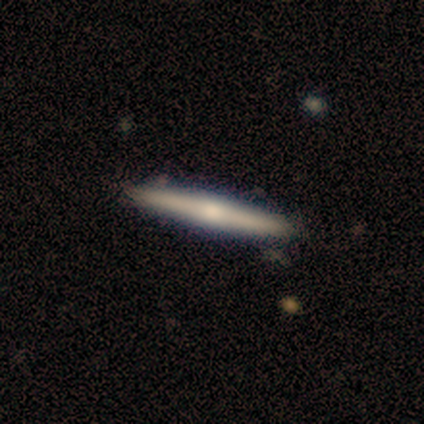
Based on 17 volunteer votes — Overall: featured or disk (53%; smooth 47%). Edge-on disk: yes (89%). Edge-on bulge: rounded (75%). Merging: none (100%).